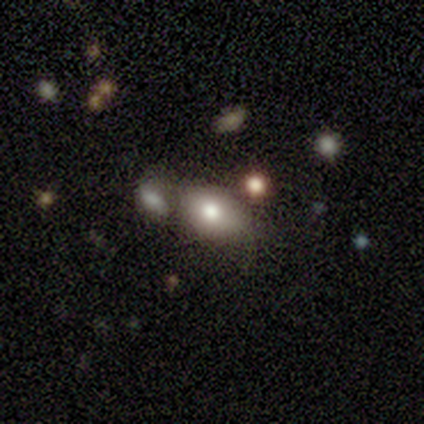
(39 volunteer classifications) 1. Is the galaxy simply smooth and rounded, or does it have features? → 79% smooth, 15% featured or disk, 5% star or artifact.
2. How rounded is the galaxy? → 81% in between, 13% round, 6% cigar-shaped.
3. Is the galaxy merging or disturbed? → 41% none, 32% merger, 22% minor disturbance, 5% major disturbance.